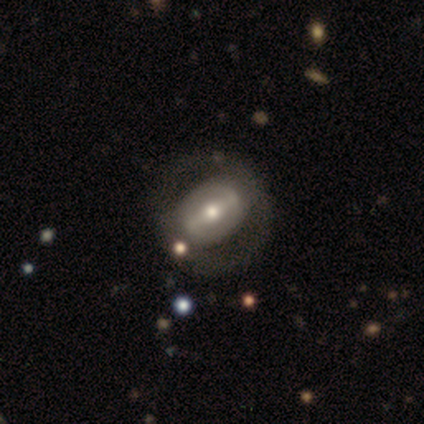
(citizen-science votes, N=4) Smooth or featured: featured or disk — 100%
Edge-on disk: no — 100%
Bar: strong — 75% (weak — 25%)
Spiral arms: no — 100%
Bulge size: moderate — 50% (tied with small — 50%)
Merging: none — 75% (minor disturbance — 25%)